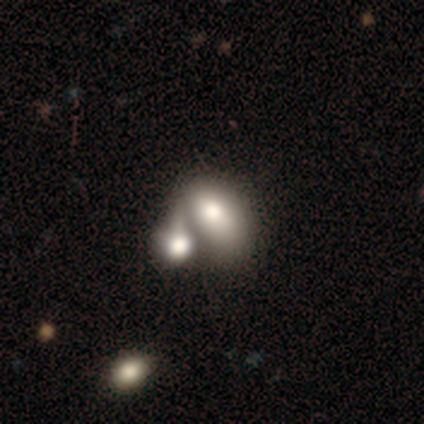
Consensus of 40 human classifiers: Overall: smooth (75%). How rounded: in between (83%). Merging: merger (77%).